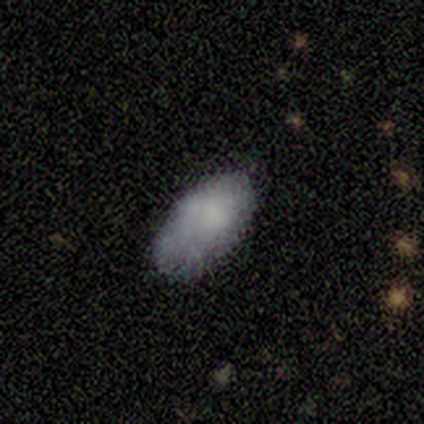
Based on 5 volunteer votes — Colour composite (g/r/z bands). It shows a smooth galaxy with no disk features (80%) that is in between round and cigar-shaped (100%). Merging: none (50%, tied with minor disturbance).